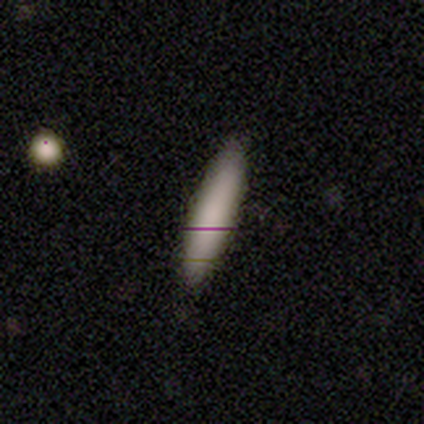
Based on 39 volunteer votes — This appears to be a smooth galaxy with no disk features (74%) that is cigar-shaped (72%). Merging: none (78%).